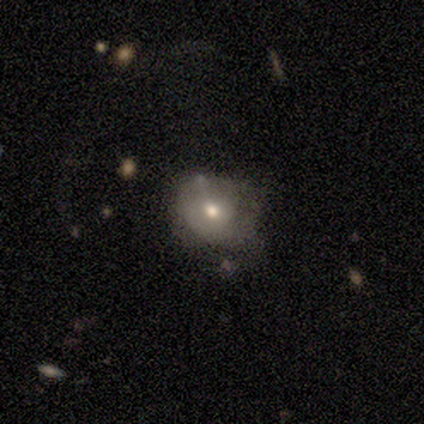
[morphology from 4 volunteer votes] A smooth galaxy with no disk features (100%) that is round (75%).

Vote fractions:
- Smooth or featured? smooth: 100% / featured or disk: 0% / star or artifact: 0%
- How rounded? round: 75% / in between: 25% / cigar-shaped: 0%
- Merging? none: 75% / major disturbance: 25% / minor disturbance: 0% / merger: 0%